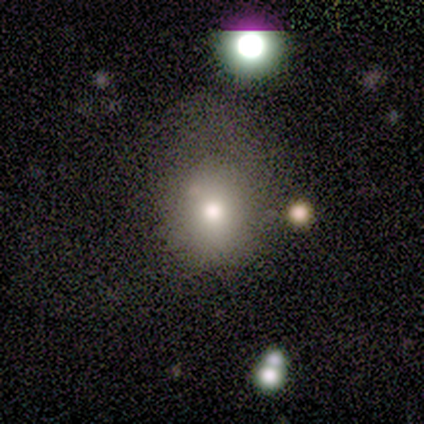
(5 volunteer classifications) Overall: smooth (100%). How rounded: round (80%). Merging: none (40%, tied with minor disturbance).